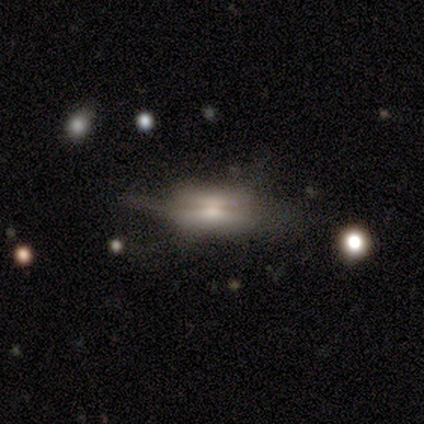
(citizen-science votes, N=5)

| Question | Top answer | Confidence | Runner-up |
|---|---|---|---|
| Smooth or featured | featured or disk | 100% | — |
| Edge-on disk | yes | 60% | no (40%) |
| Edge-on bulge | boxy | 67% | rounded (33%) |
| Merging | none | 60% | major disturbance (40%) |